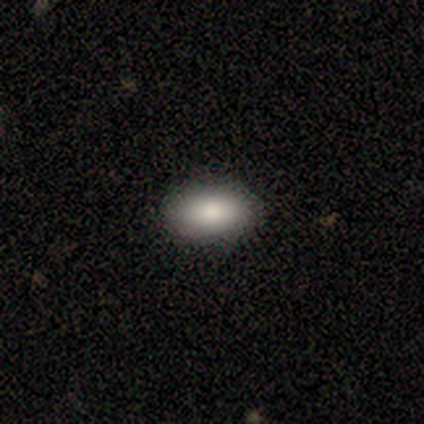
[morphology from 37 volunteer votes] Smooth or featured: smooth — 78% (star or artifact — 14%)
How rounded: in between — 93% (round — 7%)
Merging: none — 94% (minor disturbance — 6%)